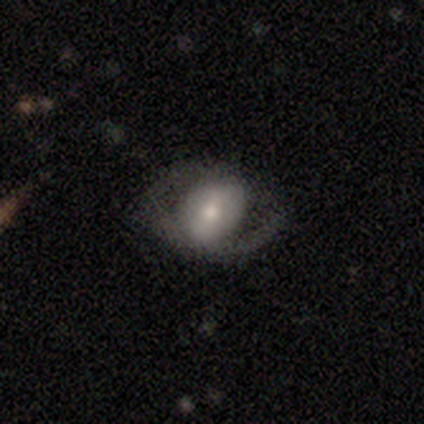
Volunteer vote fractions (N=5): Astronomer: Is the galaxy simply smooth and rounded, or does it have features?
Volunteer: smooth — 40%, tied with star or artifact at 40%.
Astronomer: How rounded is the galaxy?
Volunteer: round — 100%.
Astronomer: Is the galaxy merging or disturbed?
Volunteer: none — 100%.